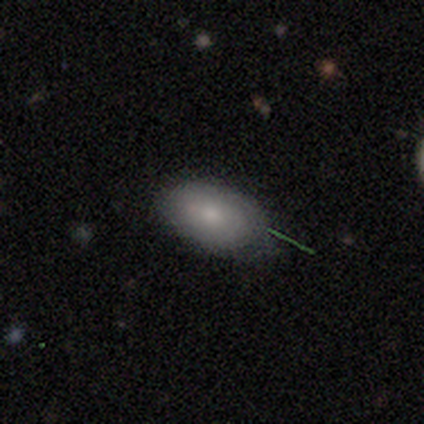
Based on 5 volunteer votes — This appears to be a smooth galaxy with no disk features (100%) that is in between round and cigar-shaped (100%). Merging: none (60%).